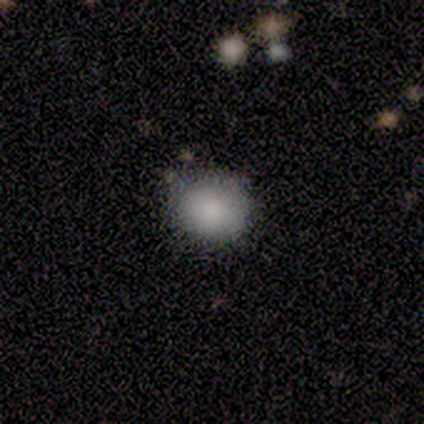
Overall: smooth (100%). How rounded: round (80%). Merging: none (80%).